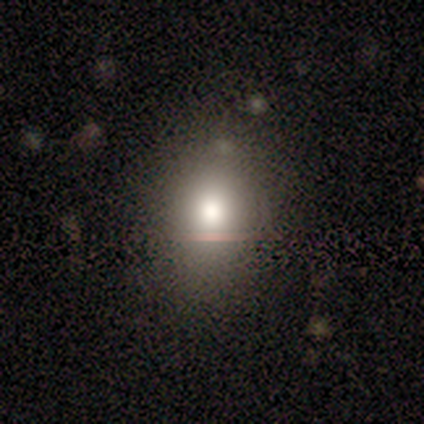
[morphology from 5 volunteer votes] Volunteers were most divided on "how rounded" (2-way tie): round: 50%, in between: 50%, cigar-shaped: 0%. More confident: merging — none (100%); smooth or featured — smooth (80%).